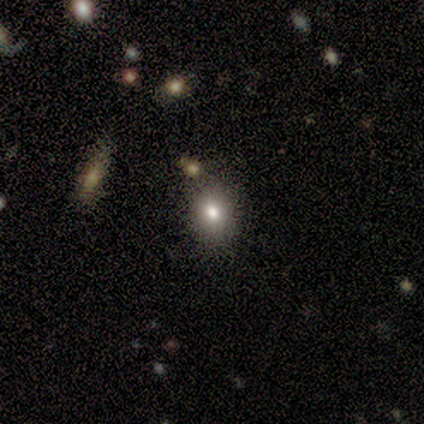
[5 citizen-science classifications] smooth 60%, star or artifact 40%, featured or disk 0%. Down the decision tree: how rounded — in between (67%); merging — none (67%).